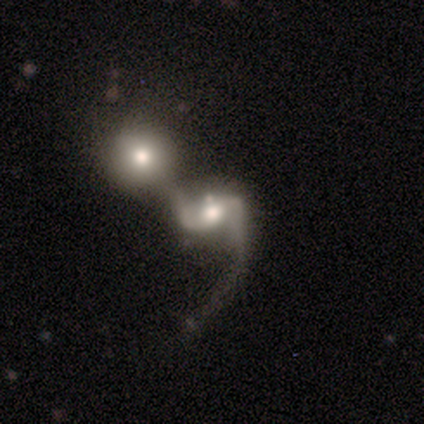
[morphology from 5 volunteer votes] smooth-or-featured: featured or disk: 100% | smooth: 0% | star or artifact: 0%
  disk-edge-on: no: 100% | yes: 0%
    bar: weak: 60% | no: 40% | strong: 0%
    has-spiral-arms: yes: 100% | no: 0%
      spiral-winding: medium: 60% | loose: 40% | tight: 0%
      spiral-arm-count: 2: 80% | can't tell: 20% | 1: 0% | 3: 0% | 4: 0% | more than 4: 0%
    bulge-size: moderate: 100% | dominant: 0% | large: 0% | small: 0% | none: 0%
  merging: merger: 100% | none: 0% | minor disturbance: 0% | major disturbance: 0%